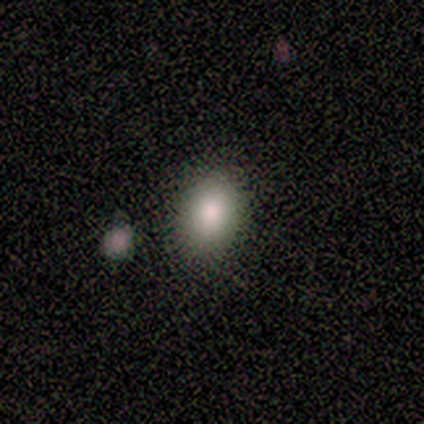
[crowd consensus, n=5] This appears to be a smooth galaxy with no disk features (100%) that is round (60%). Merging: none (80%).